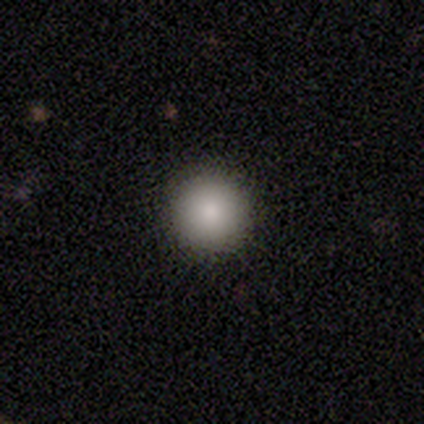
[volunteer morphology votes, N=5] This appears to be a smooth galaxy with no disk features (100%) that is round (100%). Merging: none (80%).